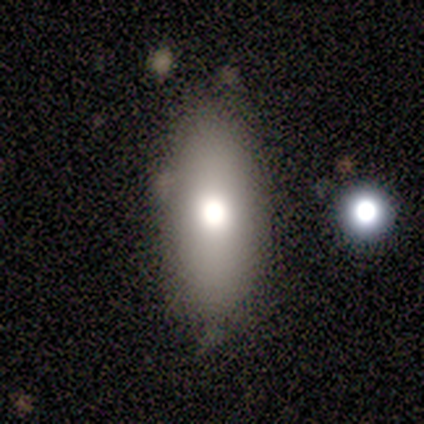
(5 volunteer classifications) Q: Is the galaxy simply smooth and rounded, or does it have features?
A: smooth — 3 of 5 (60%).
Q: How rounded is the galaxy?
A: in between — 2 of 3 (67%).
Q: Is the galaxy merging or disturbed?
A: none — 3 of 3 (100%).